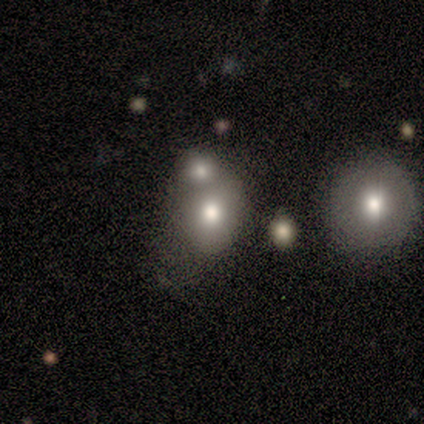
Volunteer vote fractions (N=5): A smooth galaxy with no disk features (80%) that is round (75%). Merging: none (60%).